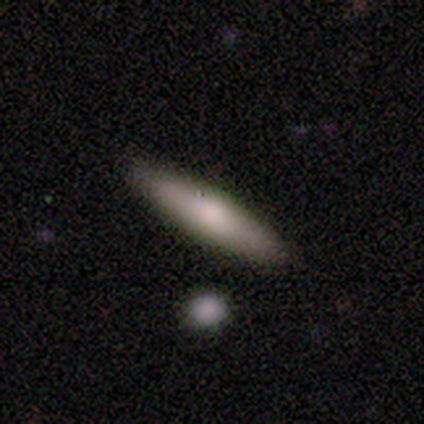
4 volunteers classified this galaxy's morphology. Smooth or featured: smooth — 50% (tied with featured or disk — 50%)
How rounded: cigar-shaped — 100%
Merging: none — 100%